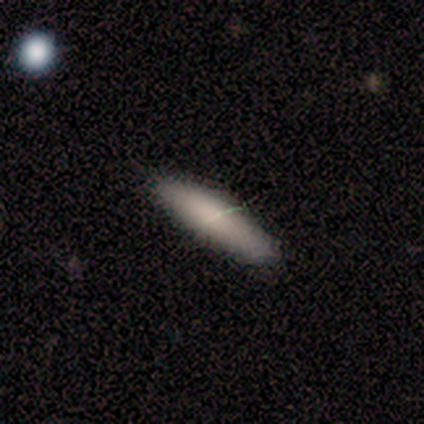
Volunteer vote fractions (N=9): Smooth or featured: smooth — 78% (featured or disk — 22%)
How rounded: cigar-shaped — 86% (in between — 14%)
Merging: none — 78% (minor disturbance — 22%)